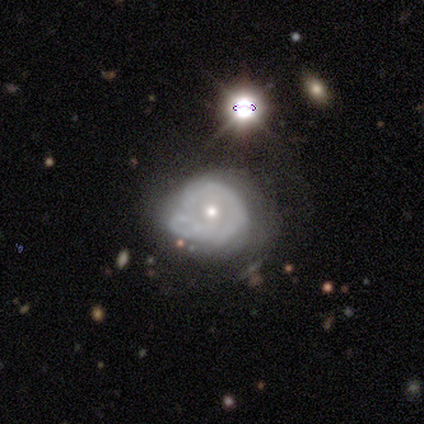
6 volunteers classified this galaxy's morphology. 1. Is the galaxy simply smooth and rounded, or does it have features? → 50% featured or disk, 33% smooth, 17% star or artifact.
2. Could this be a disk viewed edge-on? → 100% no, 0% yes.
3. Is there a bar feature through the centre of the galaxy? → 67% weak, 33% no, 0% strong.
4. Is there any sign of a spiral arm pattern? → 100% yes, 0% no.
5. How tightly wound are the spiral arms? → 67% medium, 33% tight, 0% loose.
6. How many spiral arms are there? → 67% 2, 33% can't tell, 0% 1, 0% 3, 0% 4, 0% more than 4.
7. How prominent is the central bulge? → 67% moderate, 33% small, 0% dominant, 0% large, 0% none.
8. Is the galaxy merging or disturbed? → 80% minor disturbance, 20% none, 0% major disturbance, 0% merger.